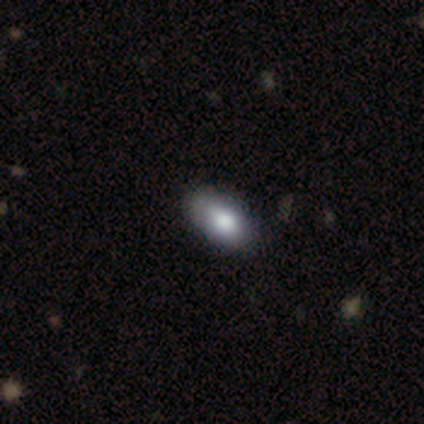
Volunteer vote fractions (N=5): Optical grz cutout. It shows a smooth galaxy with no disk features (60%) that is in between round and cigar-shaped (67%). Merging: none (50%).